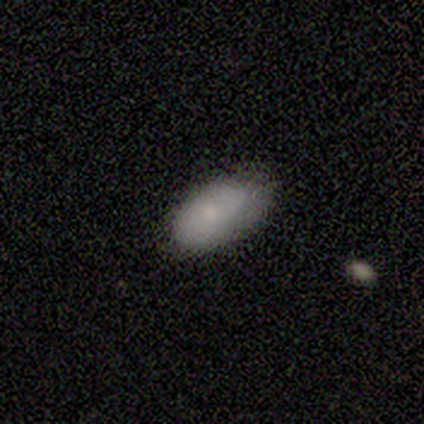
This is clearly a smooth galaxy (100%). How rounded: clearly in between (80%). Merging: clearly none (80%).